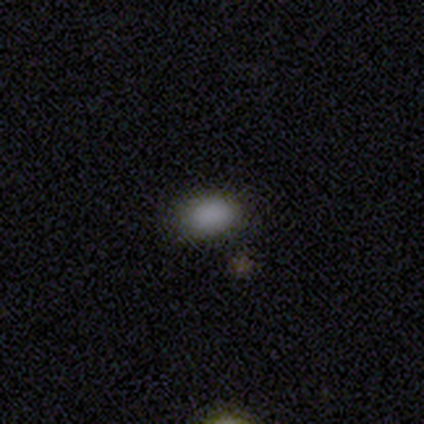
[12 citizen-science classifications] smooth_or_featured: smooth (p=1.00)
how_rounded: in between (p=0.92) [alt: round p=0.08]
merging: none (p=0.50) [alt: minor disturbance p=0.42]